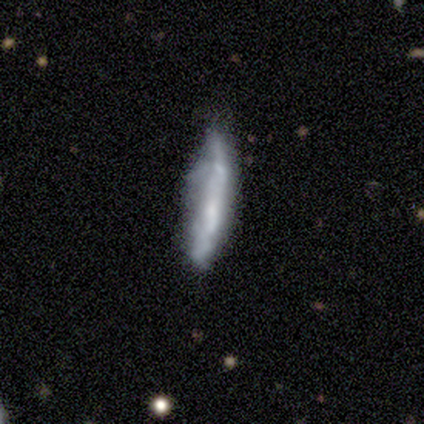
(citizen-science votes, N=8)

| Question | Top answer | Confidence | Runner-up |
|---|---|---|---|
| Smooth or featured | smooth | 62% | featured or disk (38%) |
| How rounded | cigar-shaped | 60% | in between (40%) |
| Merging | minor disturbance | 62% | none (25%) |